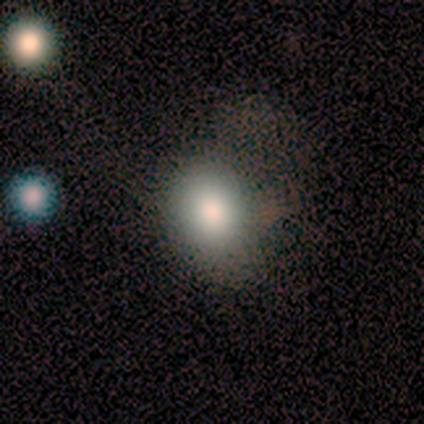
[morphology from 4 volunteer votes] This appears to be a smooth galaxy with no disk features (100%) that is in between round and cigar-shaped (75%). Merging: major disturbance (50%).